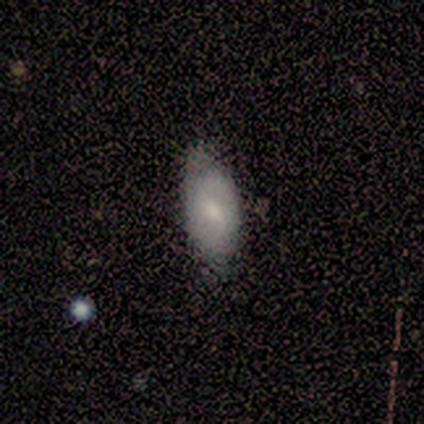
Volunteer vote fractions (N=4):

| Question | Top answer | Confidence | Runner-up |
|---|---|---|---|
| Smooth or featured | smooth | 75% | featured or disk (25%) |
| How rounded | in between | 100% | — |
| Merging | none | 50% | tied: minor disturbance (50%) |